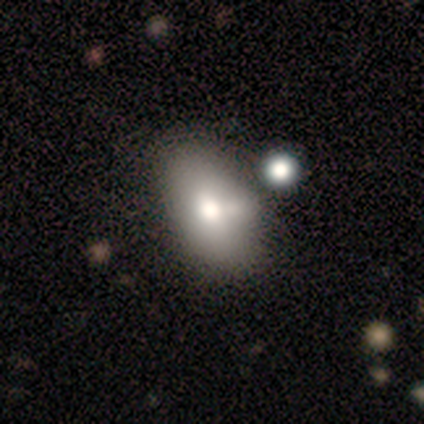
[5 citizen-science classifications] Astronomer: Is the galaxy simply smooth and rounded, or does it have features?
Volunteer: smooth — 80%.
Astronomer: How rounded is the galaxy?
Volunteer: in between — 100%.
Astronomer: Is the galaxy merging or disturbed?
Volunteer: none — 40%, tied with minor disturbance at 40%.